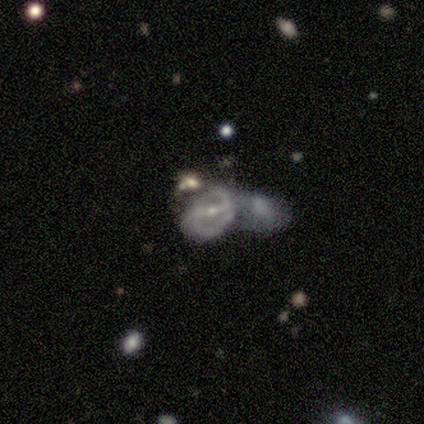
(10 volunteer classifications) Smooth or featured?
  - featured or disk: 90% *
  - smooth: 10%
  - star or artifact: 0%
Edge-on disk?
  - no: 78% *
  - yes: 22%
Bar?
  - strong: 100% *
  - weak: 0%
  - no: 0%
Spiral arms?
  - yes: 86% *
  - no: 14%
Spiral winding?
  - medium: 67% *
  - tight: 17%
  - loose: 17%
Spiral arm count?
  - 2: 83% *
  - can't tell: 17%
  - 1: 0%
  - 3: 0%
  - 4: 0%
  - more than 4: 0%
Bulge size?
  - moderate: 57% *
  - small: 43%
  - dominant: 0%
  - large: 0%
  - none: 0%
Merging?
  - merger: 70% *
  - major disturbance: 20%
  - minor disturbance: 10%
  - none: 0%